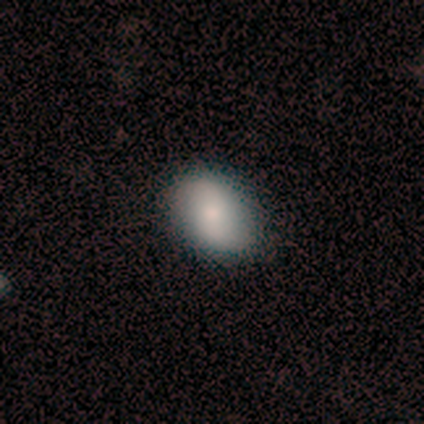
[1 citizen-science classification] featured or disk 100%, smooth 0%, star or artifact 0%. Down the decision tree: edge-on disk — no (100%); bar — no (100%); spiral arms — yes (100%); spiral arm count — 2 (100%); spiral winding — loose (100%); bulge size — small (100%); merging — none (100%).